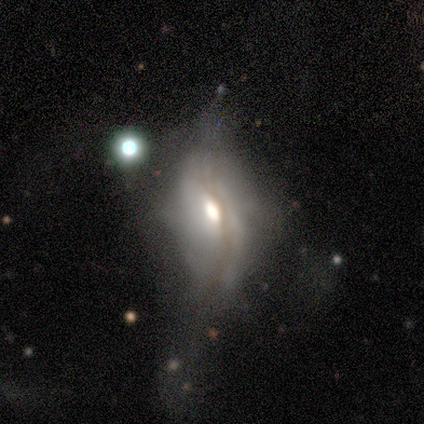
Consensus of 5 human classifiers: Volunteers were most divided on "spiral arms": no: 67%, yes: 33%. More confident: bar — no (100%); smooth or featured — featured or disk (80%); edge-on disk — no (75%); bulge size — moderate (67%); merging — none (60%).